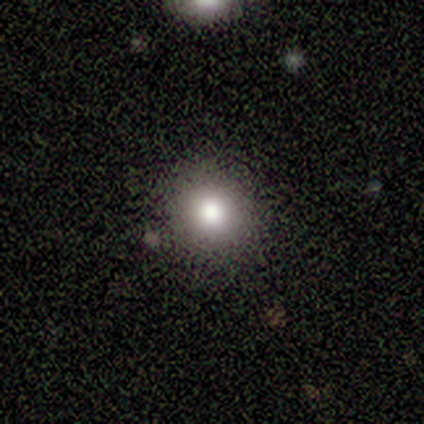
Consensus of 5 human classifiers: This is clearly a smooth galaxy (80%). How rounded: clearly round (100%). Merging: clearly none (100%).